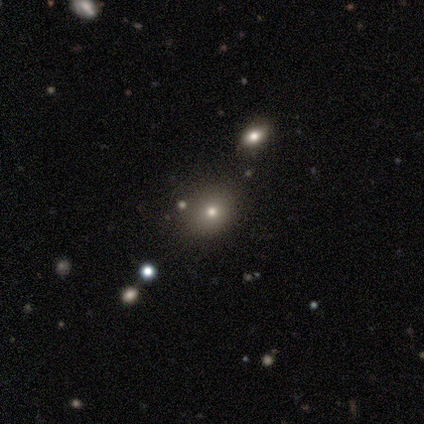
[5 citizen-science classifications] Volunteers were most divided on "smooth or featured" (2-way tie): smooth: 40%, star or artifact: 40%, featured or disk: 20%; "how rounded" (2-way tie): round: 50%, in between: 50%, cigar-shaped: 0%. More confident: merging — none (67%).